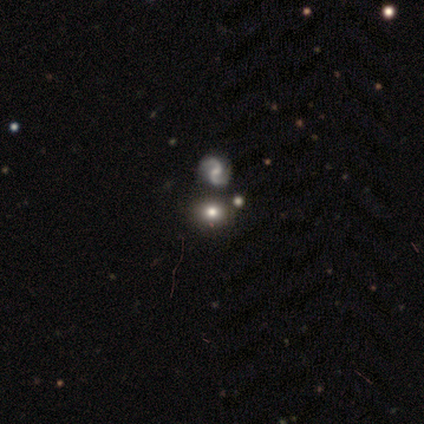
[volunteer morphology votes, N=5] This appears to be a smooth galaxy with no disk features (60%) that is round (67%). Merging: none (67%).